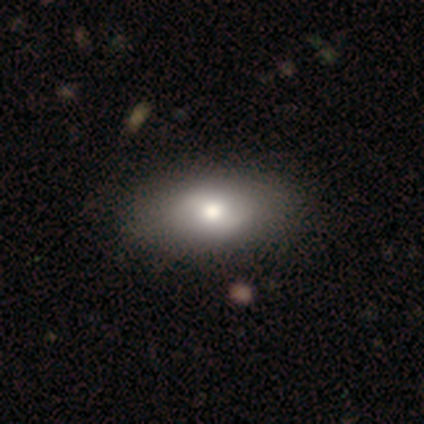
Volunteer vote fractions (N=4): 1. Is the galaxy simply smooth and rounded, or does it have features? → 75% smooth, 25% star or artifact, 0% featured or disk.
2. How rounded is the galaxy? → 67% in between, 33% round, 0% cigar-shaped.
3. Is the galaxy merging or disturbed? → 67% none, 33% minor disturbance, 0% major disturbance, 0% merger.